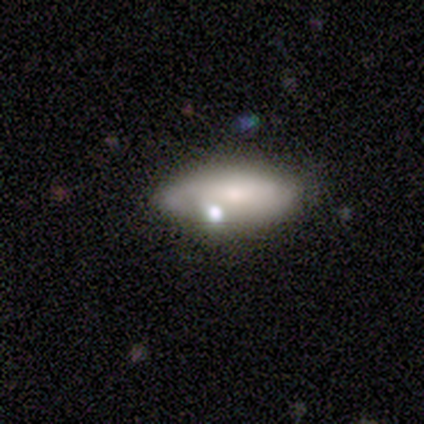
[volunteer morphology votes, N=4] smooth_or_featured: smooth (p=0.50) [tied with: featured or disk p=0.50]
how_rounded: in between (p=1.00)
merging: minor disturbance (p=0.75) [alt: none p=0.25]